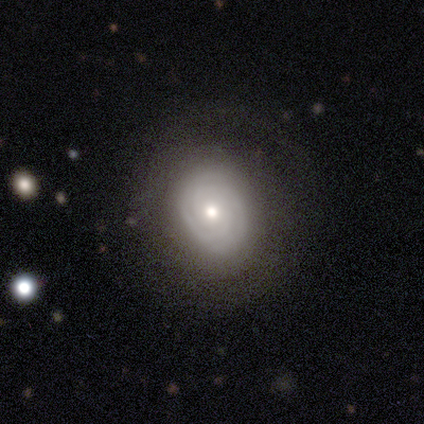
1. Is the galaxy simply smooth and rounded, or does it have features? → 76% featured or disk, 24% smooth, 0% star or artifact.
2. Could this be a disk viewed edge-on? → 100% no, 0% yes.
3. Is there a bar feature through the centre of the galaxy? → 93% no, 7% weak, 0% strong.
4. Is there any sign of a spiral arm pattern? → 90% yes, 10% no.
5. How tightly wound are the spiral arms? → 88% tight, 8% loose, 4% medium.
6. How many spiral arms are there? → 46% 2, 35% can't tell, 12% 3, 8% 4, 0% 1, 0% more than 4.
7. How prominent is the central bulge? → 76% moderate, 14% small, 3% dominant, 3% large, 3% none.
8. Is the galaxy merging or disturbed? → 63% none, 0% minor disturbance, 0% major disturbance, 0% merger.